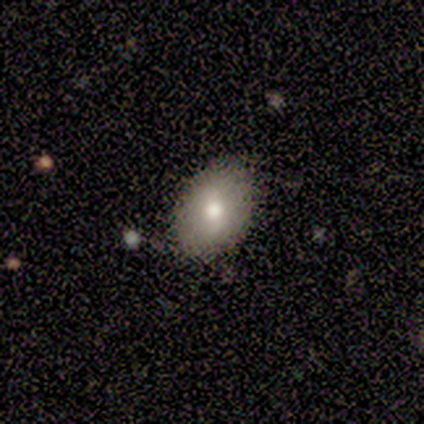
Smooth or featured: smooth — 80% (star or artifact — 20%)
How rounded: in between — 75% (round — 25%)
Merging: none — 75% (minor disturbance — 25%)